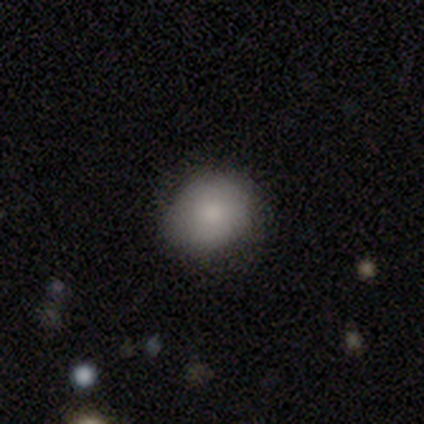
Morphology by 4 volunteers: Smooth or featured? 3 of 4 (75%) said smooth. How rounded? 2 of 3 (67%) said round. Merging? 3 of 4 (75%) said none.